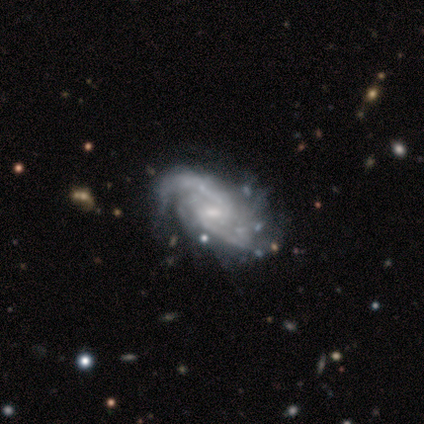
Overall: featured or disk (60%; star or artifact 40%). Edge-on disk: no (67%; yes 33%). Bar: weak (100%). Spiral arms: yes (100%). Spiral arm count: 2 (100%). Spiral winding: medium (100%). Bulge size: small (100%). Merging: minor disturbance (67%; none 33%).